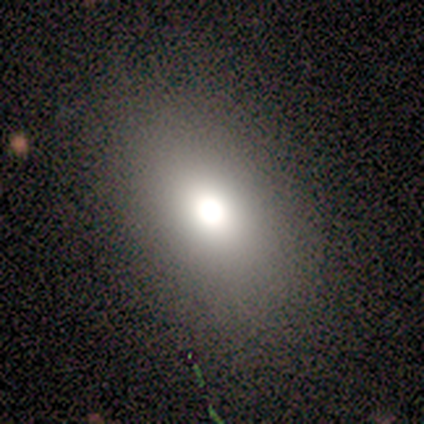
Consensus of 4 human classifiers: Overall: smooth (100%). How rounded: in between (100%). Merging: none (100%).